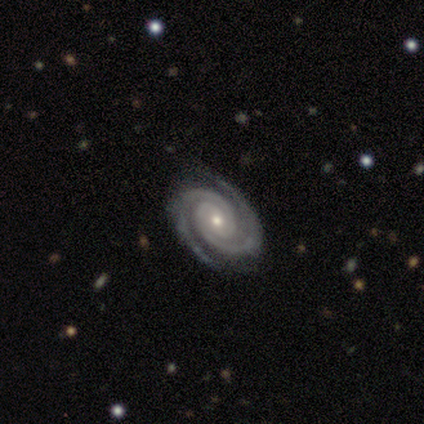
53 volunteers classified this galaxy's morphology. Q: Smooth or featured?
A: featured or disk (100%)
Q: Edge-on disk?
A: no (98%); runner-up: yes (2%)
Q: Bar?
A: no (69%); runner-up: weak (23%)
Q: Spiral arms?
A: yes (100%)
Q: Spiral winding?
A: tight (88%); runner-up: medium (10%)
Q: Spiral arm count?
A: 2 (90%); runner-up: 3 (8%)
Q: Bulge size?
A: moderate (54%); runner-up: small (44%)
Q: Merging?
A: none (83%); runner-up: minor disturbance (13%)